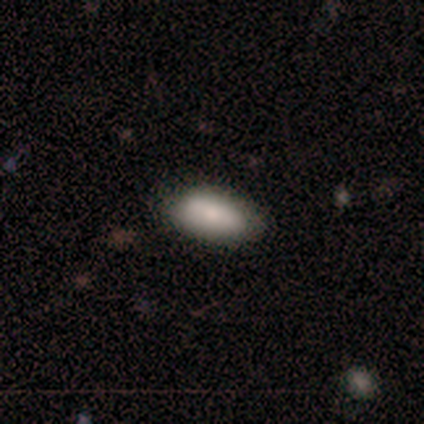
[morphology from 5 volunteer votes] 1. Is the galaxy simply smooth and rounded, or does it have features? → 80% smooth, 20% featured or disk, 0% star or artifact.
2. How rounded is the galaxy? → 100% in between, 0% round, 0% cigar-shaped.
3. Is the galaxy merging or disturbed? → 60% none, 40% minor disturbance, 0% major disturbance, 0% merger.